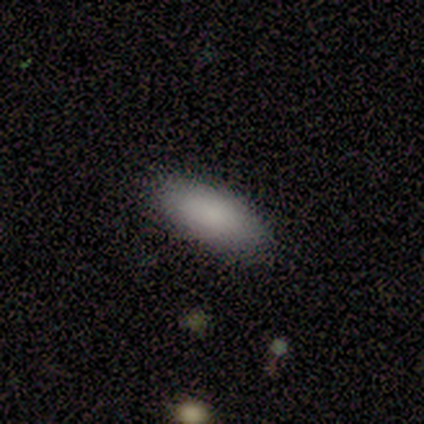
Smooth or featured? smooth (80%)
How rounded? in between (100%)
Merging? none (100%)